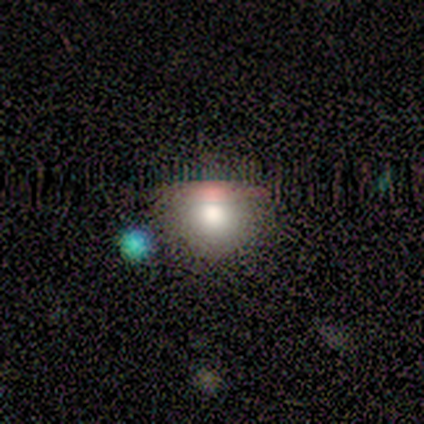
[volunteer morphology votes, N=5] Smooth or featured: smooth — 80% (featured or disk — 20%)
How rounded: round — 100%
Merging: none — 80% (minor disturbance — 20%)